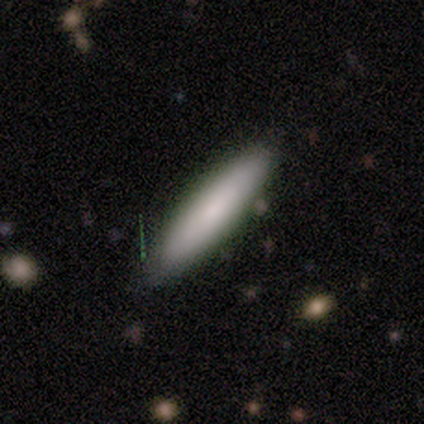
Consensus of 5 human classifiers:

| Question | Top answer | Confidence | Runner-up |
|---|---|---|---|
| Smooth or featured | smooth | 40% | tied: featured or disk (40%) |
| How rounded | cigar-shaped | 100% | — |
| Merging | none | 100% | — |